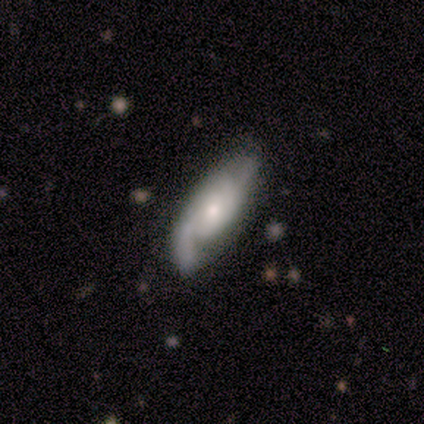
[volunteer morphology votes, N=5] This is clearly a featured or disk galaxy (100%). It is clearly not viewed edge-on (80%). Bar: likely no (75%). Spiral arm pattern: clearly yes (100%). Spiral arm count: clearly 2 (100%). Spiral winding: likely tight (75%). Central bulge: possibly moderate (50%, tied with small). Merging: clearly none (100%).